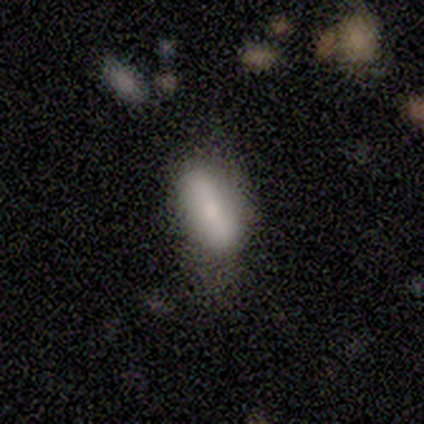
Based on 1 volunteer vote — This is clearly a smooth galaxy (100%). How rounded: clearly in between (100%). Merging: clearly none (100%).